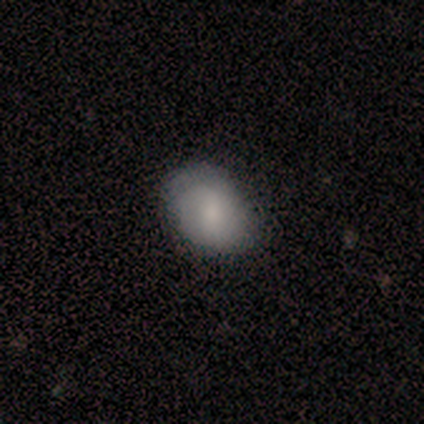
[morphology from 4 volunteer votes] smooth_or_featured: smooth (p=1.00)
how_rounded: in between (p=0.75) [alt: round p=0.25]
merging: none (p=1.00)